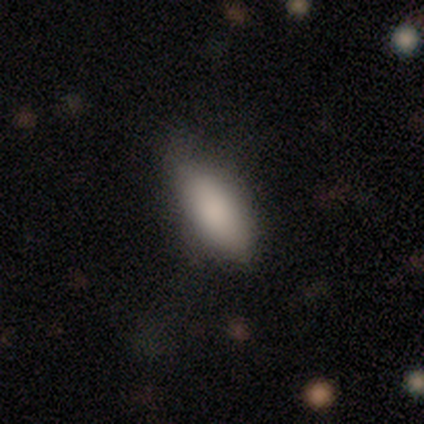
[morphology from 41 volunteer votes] Smooth or featured? 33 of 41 (80%) said smooth. How rounded? 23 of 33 (70%) said in between. Merging? 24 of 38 (63%) said none.